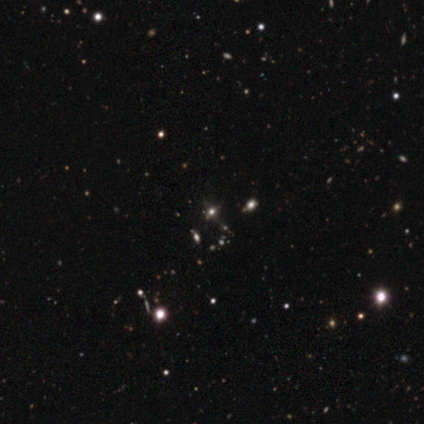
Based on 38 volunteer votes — A star or artifact, not a galaxy (74%).

Vote fractions:
- Smooth or featured? star or artifact: 74% / smooth: 18% / featured or disk: 8%